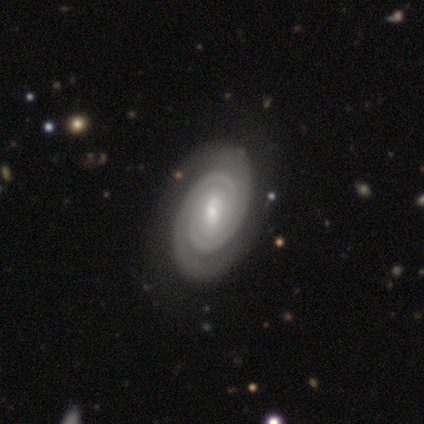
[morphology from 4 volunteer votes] smooth_or_featured: featured or disk (p=1.00)
disk_edge_on: no (p=1.00)
bar: weak (p=0.50) [tied with: no p=0.50]
has_spiral_arms: yes (p=0.75) [alt: no p=0.25]
spiral_winding: tight (p=1.00)
spiral_arm_count: 2 (p=1.00)
bulge_size: small (p=0.75) [alt: moderate p=0.25]
merging: none (p=0.75) [alt: major disturbance p=0.25]